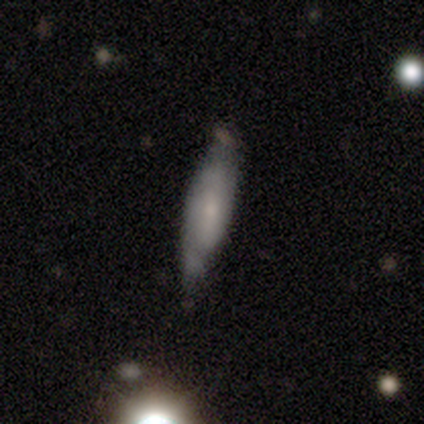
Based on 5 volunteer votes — Smooth or featured? smooth (80%)
How rounded? cigar-shaped (75%)
Merging? minor disturbance (75%)